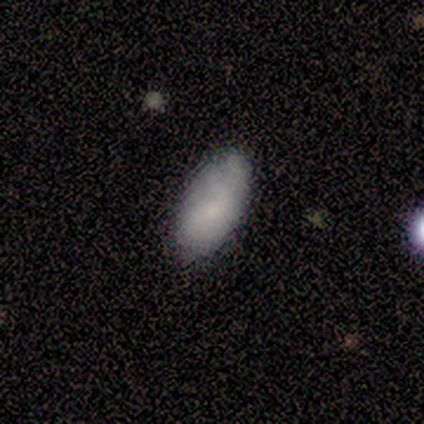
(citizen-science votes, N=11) Smooth or featured?
  - smooth: 91% *
  - featured or disk: 9%
  - star or artifact: 0%
How rounded?
  - in between: 80% *
  - round: 10%
  - cigar-shaped: 10%
Merging?
  - none: 91% *
  - minor disturbance: 9%
  - major disturbance: 0%
  - merger: 0%